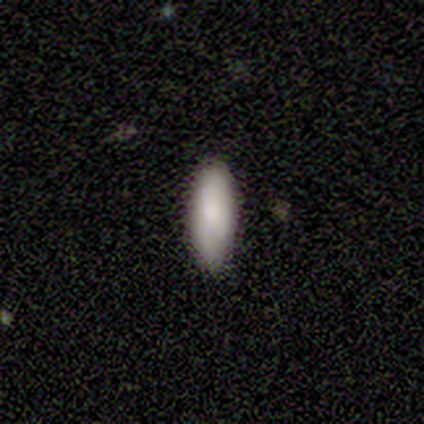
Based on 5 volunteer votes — A smooth galaxy with no disk features (100%) that is in between round and cigar-shaped (80%).

Vote fractions:
- Smooth or featured? smooth: 100% / featured or disk: 0% / star or artifact: 0%
- How rounded? in between: 80% / cigar-shaped: 20% / round: 0%
- Merging? none: 100% / minor disturbance: 0% / major disturbance: 0% / merger: 0%